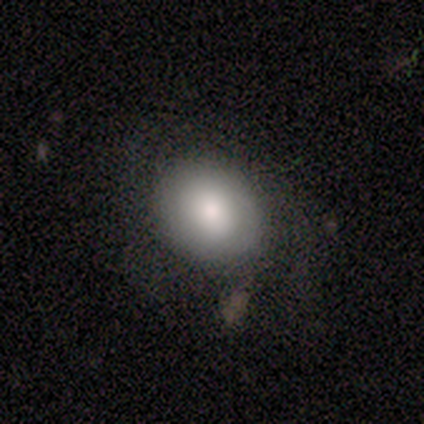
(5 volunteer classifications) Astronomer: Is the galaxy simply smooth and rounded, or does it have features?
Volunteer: smooth — 60%.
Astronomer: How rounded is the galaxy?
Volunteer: in between — 67%.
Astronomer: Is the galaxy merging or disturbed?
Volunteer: none — 100%.